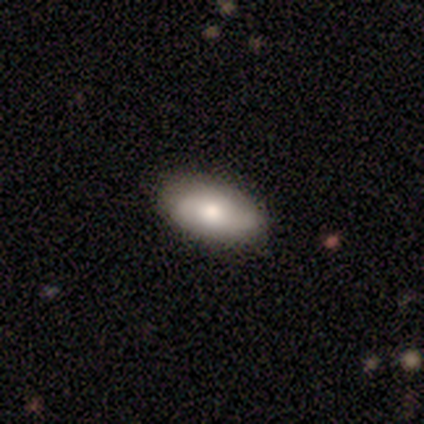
Smooth or featured: smooth — 64% (featured or disk — 21%)
How rounded: in between — 89% (cigar-shaped — 11%)
Merging: none — 67% (minor disturbance — 33%)